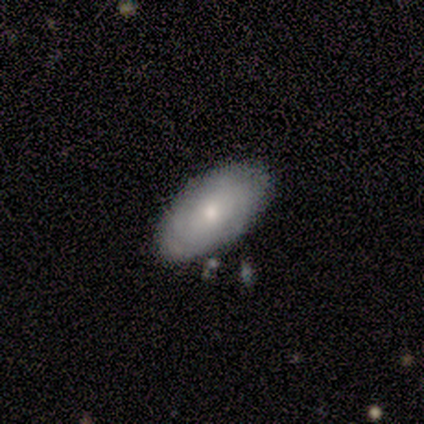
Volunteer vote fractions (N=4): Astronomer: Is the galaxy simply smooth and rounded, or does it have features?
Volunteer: smooth — 75%.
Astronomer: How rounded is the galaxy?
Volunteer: in between — 100%.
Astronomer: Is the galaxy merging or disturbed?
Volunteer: none — 100%.